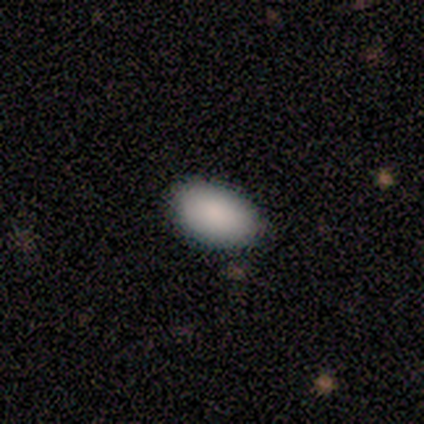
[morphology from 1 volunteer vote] Smooth or featured: smooth — 100%
How rounded: in between — 100%
Merging: none — 100%